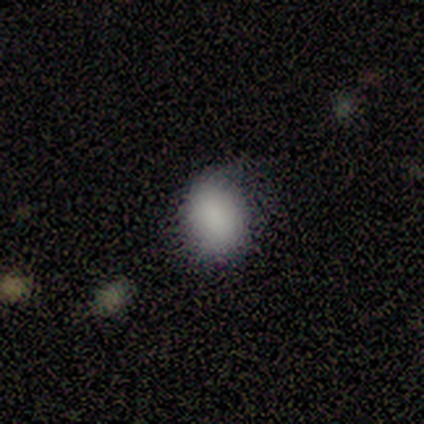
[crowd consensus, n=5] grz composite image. It shows a smooth galaxy with no disk features (80%) that is round (50%, tied with in between). Merging: none (80%).